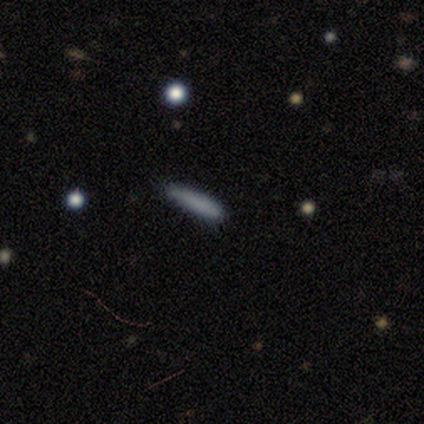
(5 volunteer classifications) This appears to be a smooth galaxy with no disk features (100%) that is cigar-shaped (80%). Merging: none (80%).